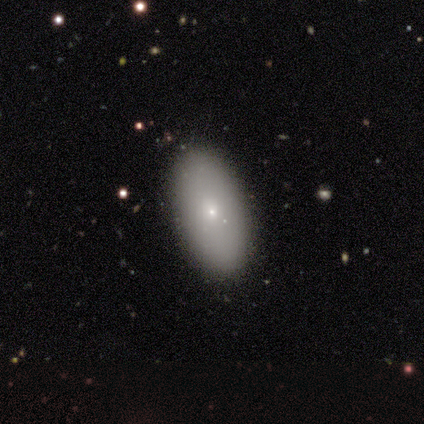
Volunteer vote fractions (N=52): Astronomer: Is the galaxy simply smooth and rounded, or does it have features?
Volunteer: smooth — 85%.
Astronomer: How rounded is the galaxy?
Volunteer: in between — 98%.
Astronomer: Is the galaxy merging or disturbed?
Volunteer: none — 94%.